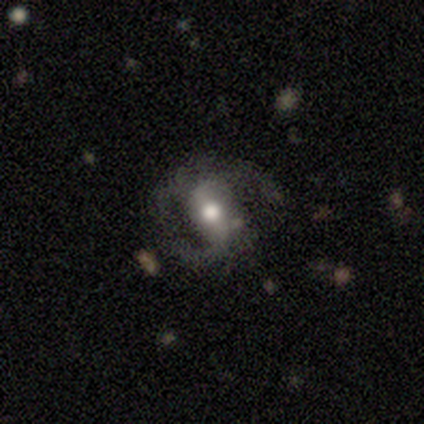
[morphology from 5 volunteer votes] A featured or disk galaxy (60%) with a strong bar (67%), 2 (67%) medium (67%) spiral arms (100%) and a large central bulge (33%, tied with moderate and small).

Vote fractions:
- Smooth or featured? featured or disk: 60% / smooth: 20% / star or artifact: 20%
- Edge-on disk? no: 100% / yes: 0%
- Bar? strong: 67% / no: 33% / weak: 0%
- Spiral arms? yes: 100% / no: 0%
- Spiral winding? medium: 67% / loose: 33% / tight: 0%
- Spiral arm count? 2: 67% / 3: 33% / 1: 0% / 4: 0% / more than 4: 0% / can't tell: 0%
- Bulge size? large: 33% (tied) / moderate: 33% (tied) / small: 33% (tied) / dominant: 0% / none: 0%
- Merging? major disturbance: 50% / none: 25% / minor disturbance: 25% / merger: 0%